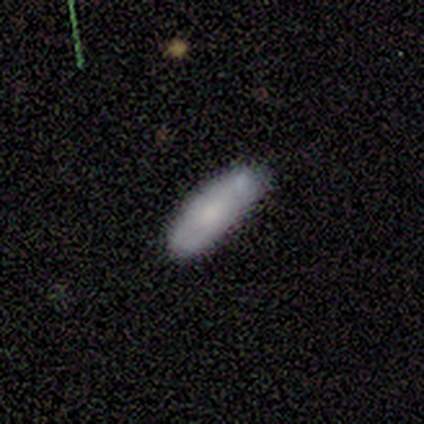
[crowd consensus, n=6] Smooth or featured? 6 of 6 (100%) said smooth. How rounded? 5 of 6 (83%) said in between. Merging? 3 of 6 (50%) said none.